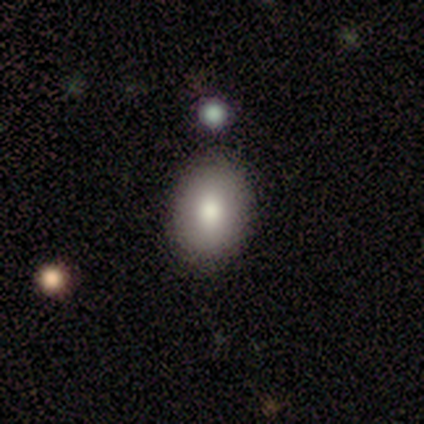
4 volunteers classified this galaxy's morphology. A smooth galaxy with no disk features (50%) that is in between round and cigar-shaped (100%).

Vote fractions:
- Smooth or featured? smooth: 50% / featured or disk: 25% / star or artifact: 25%
- How rounded? in between: 100% / round: 0% / cigar-shaped: 0%
- Merging? none: 67% / minor disturbance: 33% / major disturbance: 0% / merger: 0%